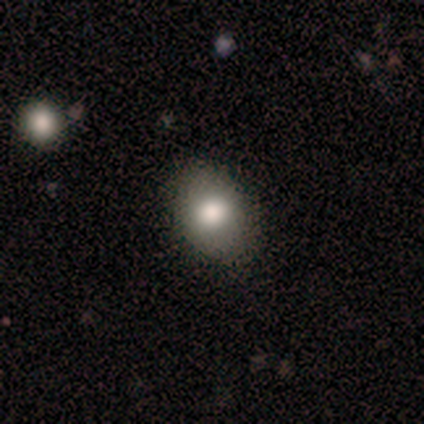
Smooth or featured?
  - smooth: 83% *
  - featured or disk: 17%
  - star or artifact: 0%
How rounded?
  - in between: 60% *
  - round: 40%
  - cigar-shaped: 0%
Merging?
  - none: 100% *
  - minor disturbance: 0%
  - major disturbance: 0%
  - merger: 0%